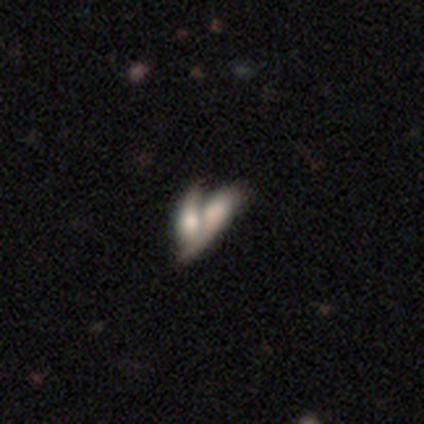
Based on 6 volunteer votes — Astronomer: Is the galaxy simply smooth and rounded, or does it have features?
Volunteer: smooth — 50%, tied with featured or disk at 50%.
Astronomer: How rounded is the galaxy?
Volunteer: in between — 67%.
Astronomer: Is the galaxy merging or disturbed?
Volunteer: merger — 50% (runner-up: none, 33%).